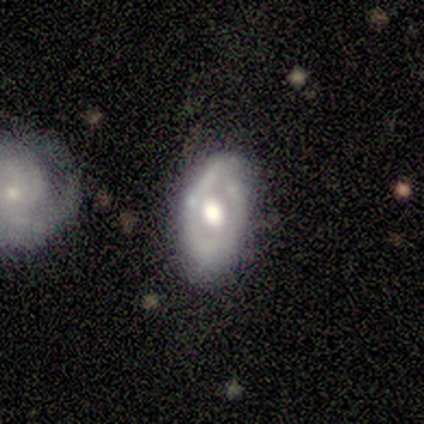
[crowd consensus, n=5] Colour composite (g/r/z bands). It shows a featured or disk galaxy (80%) with no bar (100%), no spiral arms (100%) and a large central bulge (67%). Merging: minor disturbance (80%).